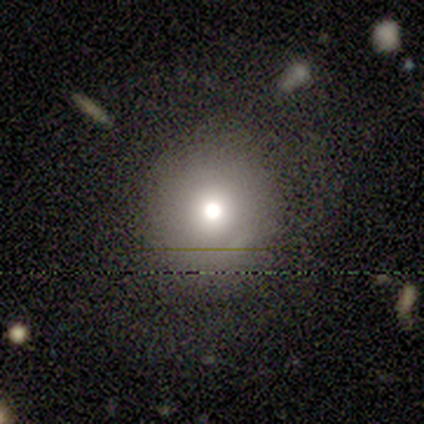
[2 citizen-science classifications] A smooth galaxy with no disk features (100%) that is round (50%, tied with in between). Merging: none (100%).